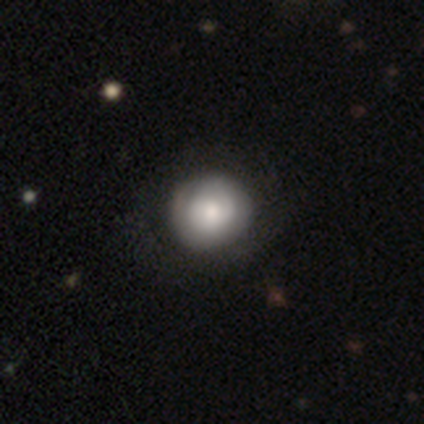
This appears to be a smooth galaxy with no disk features (60%) that is round (100%). Merging: none (100%).